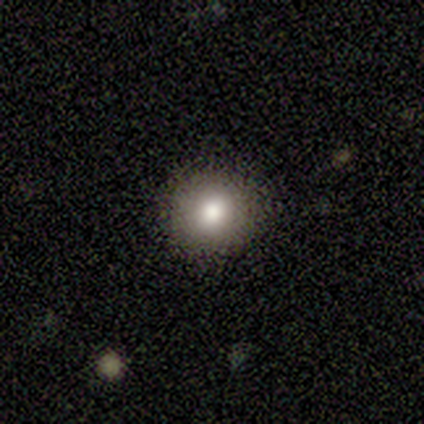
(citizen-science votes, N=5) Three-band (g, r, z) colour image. It shows a smooth galaxy with no disk features (80%) that is round (100%). Merging: none (100%).